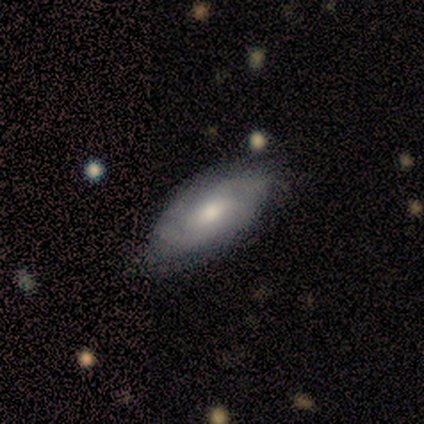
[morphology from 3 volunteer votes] A smooth galaxy with no disk features (67%) that is in between round and cigar-shaped (50%, tied with cigar-shaped). Merging: none (100%).